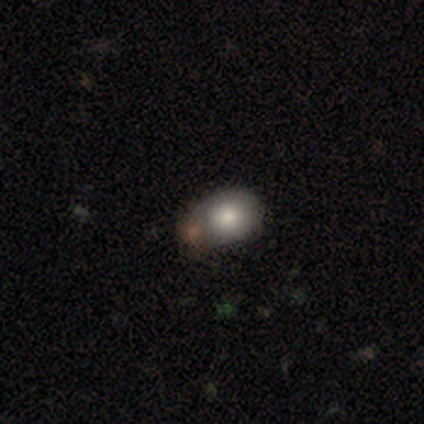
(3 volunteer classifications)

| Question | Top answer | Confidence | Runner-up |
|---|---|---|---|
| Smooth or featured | smooth | 67% | star or artifact (33%) |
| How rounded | in between | 100% | — |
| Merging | minor disturbance | 50% | tied: major disturbance (50%) |